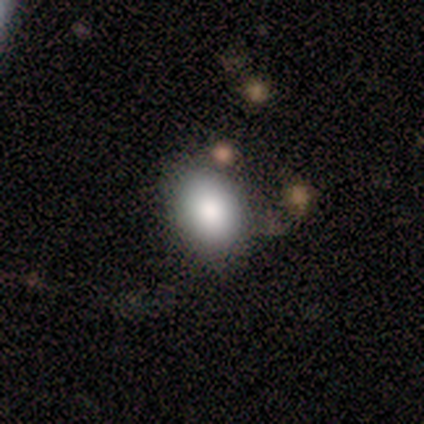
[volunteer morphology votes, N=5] Smooth or featured?
  - smooth: 100% *
  - featured or disk: 0%
  - star or artifact: 0%
How rounded?
  - round: 40% * (tied)
  - in between: 40% * (tied)
  - cigar-shaped: 20%
Merging?
  - none: 60% *
  - minor disturbance: 20%
  - major disturbance: 20%
  - merger: 0%